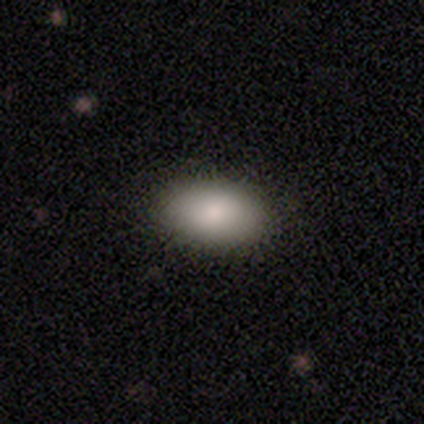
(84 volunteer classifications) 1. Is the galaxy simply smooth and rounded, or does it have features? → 86% smooth, 11% featured or disk, 4% star or artifact.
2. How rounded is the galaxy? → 99% in between, 1% round, 0% cigar-shaped.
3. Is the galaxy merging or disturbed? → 89% none, 9% minor disturbance, 1% major disturbance, 1% merger.